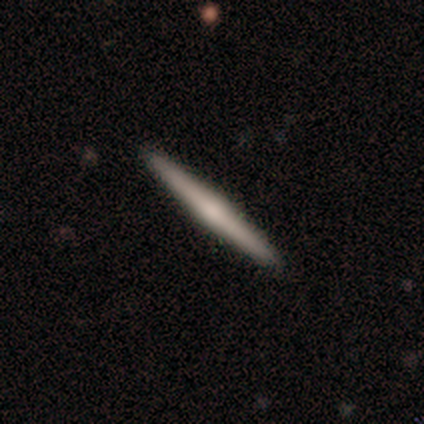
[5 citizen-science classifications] featured or disk 60%, smooth 40%, star or artifact 0%. Down the decision tree: edge-on disk — yes (100%); edge-on bulge — rounded (100%); merging — none (60%).